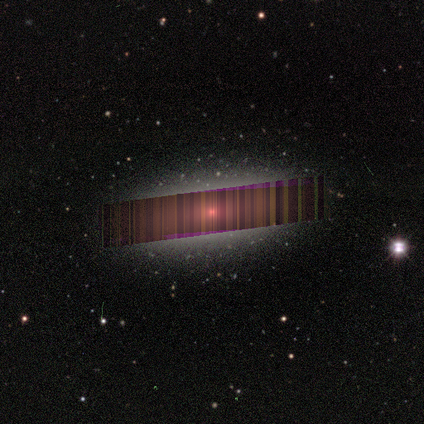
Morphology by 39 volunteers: A star or artifact, not a galaxy (56%).

Vote fractions:
- Smooth or featured? star or artifact: 56% / smooth: 26% / featured or disk: 18%